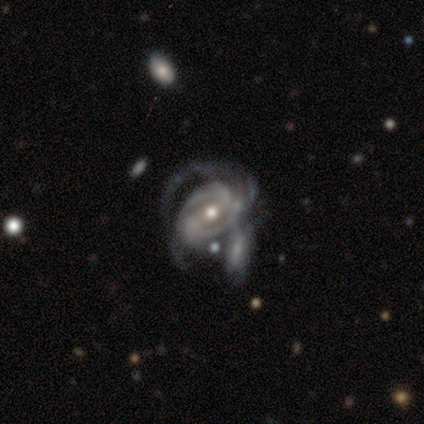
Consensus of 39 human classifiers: This appears to be a featured or disk galaxy (92%) with no bar (58%), tight (52%) spiral arms (94%) and a moderate central bulge (58%). Merging: merger (32%).